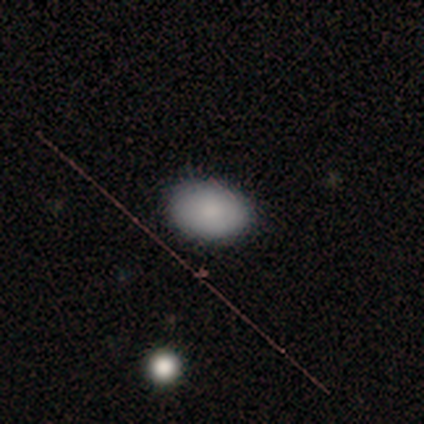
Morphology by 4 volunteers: This appears to be a smooth galaxy with no disk features (75%) that is in between round and cigar-shaped (100%). Merging: none (100%).